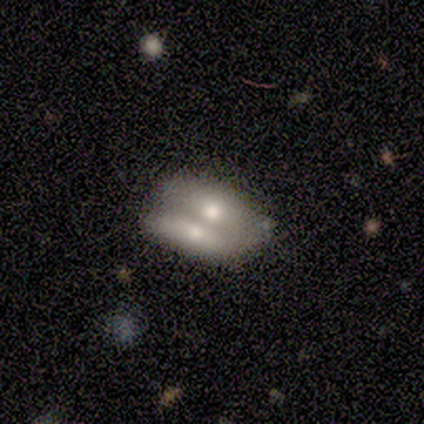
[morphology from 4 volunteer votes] type=smooth (50%, tied with featured or disk); roundness=in between (100%); merging=none (50%, tied with merger).